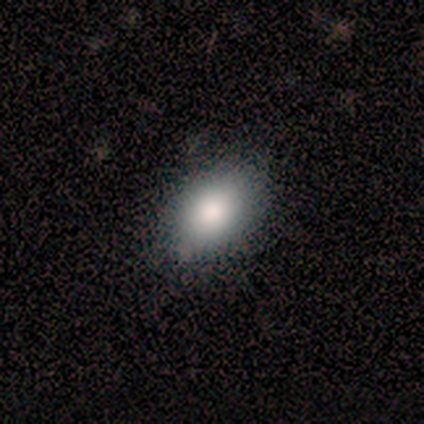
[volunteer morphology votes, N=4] Q: Smooth or featured?
A: smooth (75%); runner-up: star or artifact (25%)
Q: How rounded?
A: in between (100%)
Q: Merging?
A: none (67%); runner-up: minor disturbance (33%)